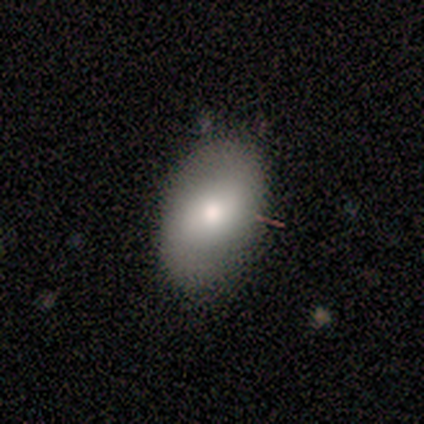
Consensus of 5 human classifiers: This is likely a smooth galaxy (60%). How rounded: clearly in between (100%). Merging: clearly none (80%).